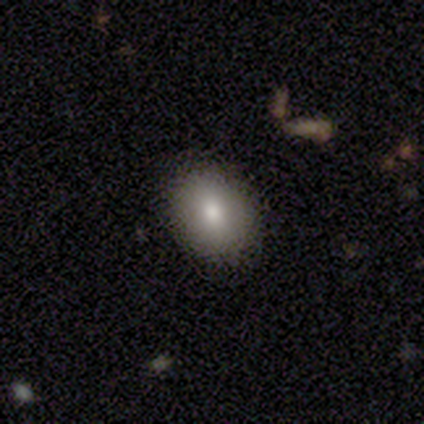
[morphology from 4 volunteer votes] Smooth or featured? 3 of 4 (75%) said smooth. How rounded? 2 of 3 (67%) said in between. Merging? 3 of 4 (75%) said none.